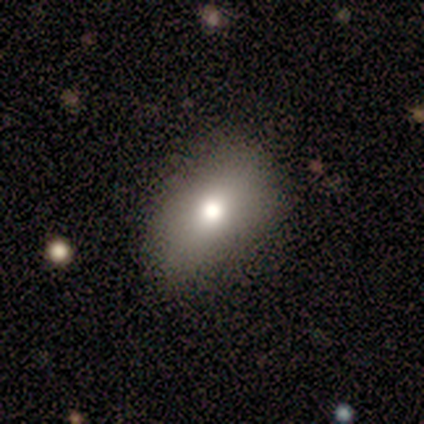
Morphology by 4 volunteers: Smooth or featured?
  - smooth: 75% *
  - featured or disk: 25%
  - star or artifact: 0%
How rounded?
  - in between: 100% *
  - round: 0%
  - cigar-shaped: 0%
Merging?
  - none: 75% *
  - minor disturbance: 25%
  - major disturbance: 0%
  - merger: 0%